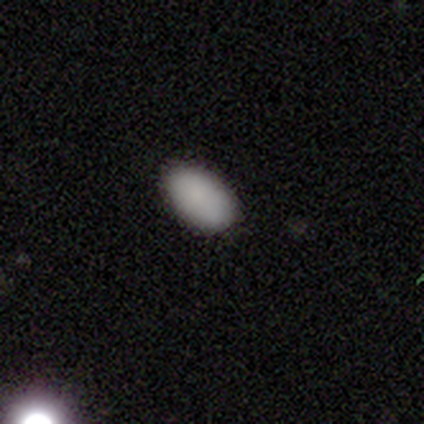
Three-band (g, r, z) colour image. It shows a smooth galaxy with no disk features (100%) that is in between round and cigar-shaped (100%). Merging: none (100%).